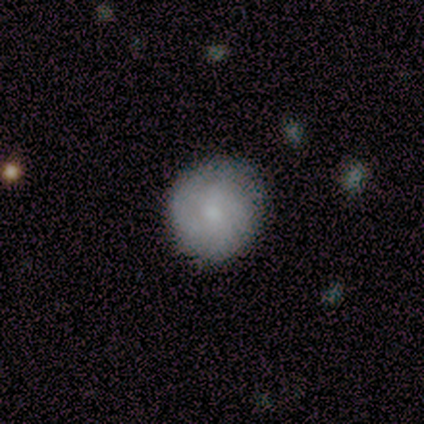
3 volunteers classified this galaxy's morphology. Smooth or featured: smooth — 100%
How rounded: round — 100%
Merging: none — 100%